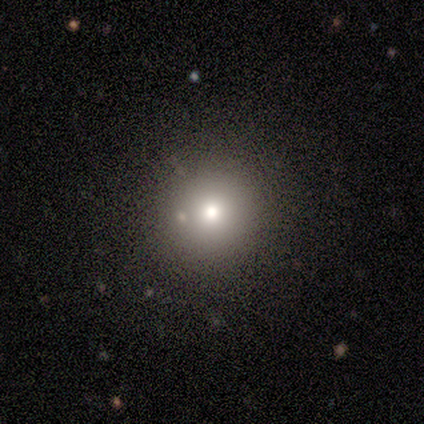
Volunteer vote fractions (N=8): A smooth galaxy with no disk features (75%) that is round (100%).

Vote fractions:
- Smooth or featured? smooth: 75% / star or artifact: 25% / featured or disk: 0%
- How rounded? round: 100% / in between: 0% / cigar-shaped: 0%
- Merging? none: 83% / merger: 17% / minor disturbance: 0% / major disturbance: 0%